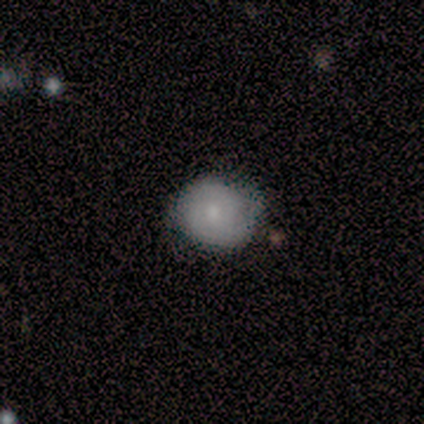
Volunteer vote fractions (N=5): smooth-or-featured: smooth: 60% | featured or disk: 40% | star or artifact: 0%
  how-rounded: round: 100% | in between: 0% | cigar-shaped: 0%
  merging: none: 80% | minor disturbance: 20% | major disturbance: 0% | merger: 0%